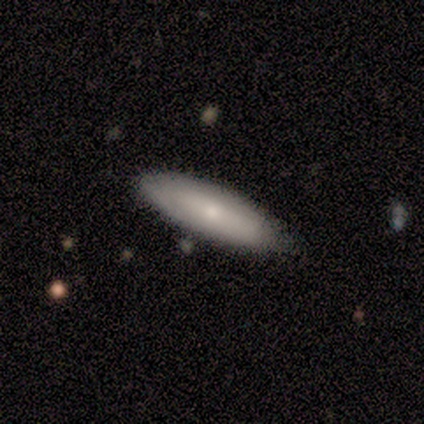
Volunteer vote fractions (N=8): Smooth or featured? smooth (62%)
How rounded? in between (80%)
Merging? none (100%)